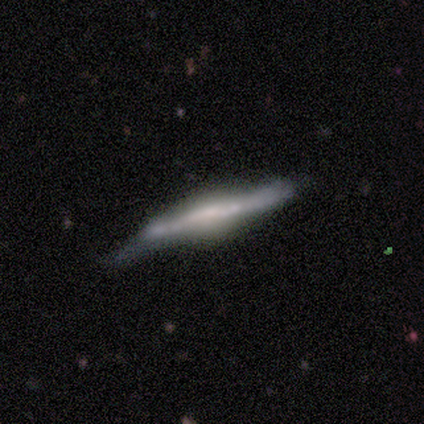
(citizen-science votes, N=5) Q: Smooth or featured?
A: featured or disk (60%); runner-up: smooth (40%)
Q: Edge-on disk?
A: yes (100%)
Q: Edge-on bulge?
A: boxy (67%); runner-up: none (33%)
Q: Merging?
A: minor disturbance (80%); runner-up: none (20%)